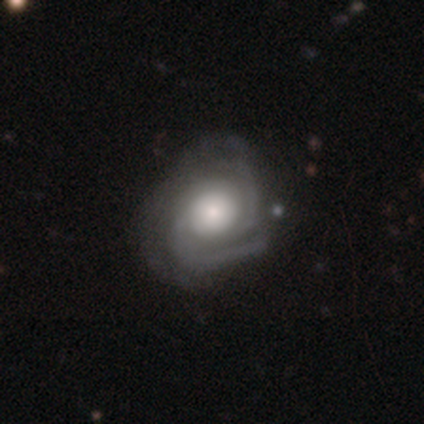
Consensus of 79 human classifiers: Q: Smooth or featured?
A: featured or disk (86%); runner-up: smooth (11%)
Q: Edge-on disk?
A: no (99%); runner-up: yes (1%)
Q: Bar?
A: no (85%); runner-up: weak (13%)
Q: Spiral arms?
A: yes (96%); runner-up: no (4%)
Q: Spiral winding?
A: tight (59%); runner-up: medium (33%)
Q: Spiral arm count?
A: 2 (44%); runner-up: 3 (30%)
Q: Bulge size?
A: moderate (48%); runner-up: large (33%)
Q: Merging?
A: none (23%); runner-up: minor disturbance (22%)